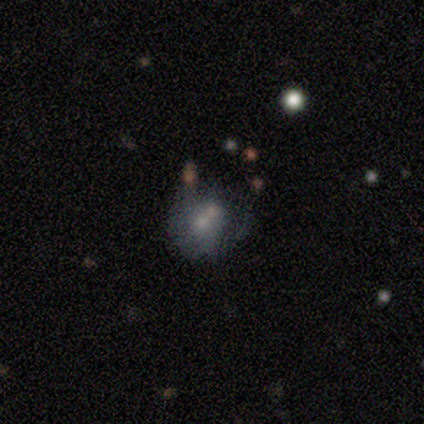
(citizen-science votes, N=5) Q: Smooth or featured?
A: featured or disk (60%); runner-up: smooth (40%)
Q: Edge-on disk?
A: no (100%)
Q: Bar?
A: no (100%)
Q: Spiral arms?
A: no (100%)
Q: Bulge size?
A: moderate (67%); runner-up: small (33%)
Q: Merging?
A: none (40%); runner-up: minor disturbance (20%)